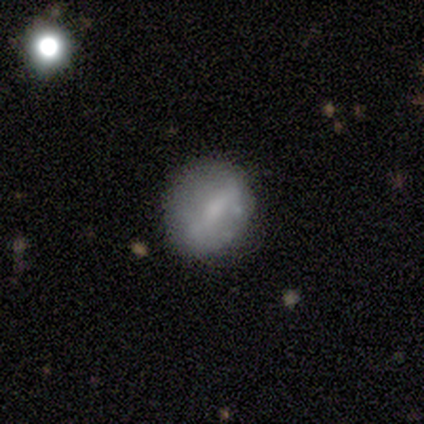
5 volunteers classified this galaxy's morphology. smooth-or-featured: smooth: 40% (tied) | featured or disk: 40% (tied) | star or artifact: 20%
  how-rounded: round: 100% | in between: 0% | cigar-shaped: 0%
  merging: none: 75% | minor disturbance: 25% | major disturbance: 0% | merger: 0%